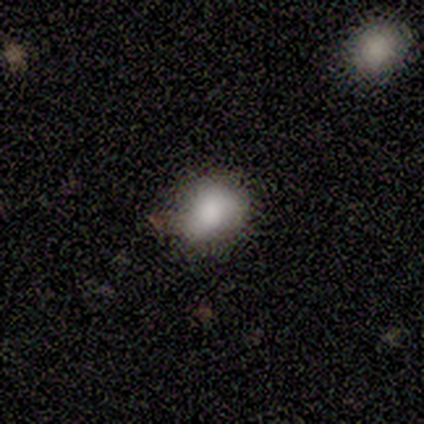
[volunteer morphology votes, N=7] A smooth galaxy with no disk features (86%) that is in between round and cigar-shaped (67%). Merging: none (43%, tied with minor disturbance).